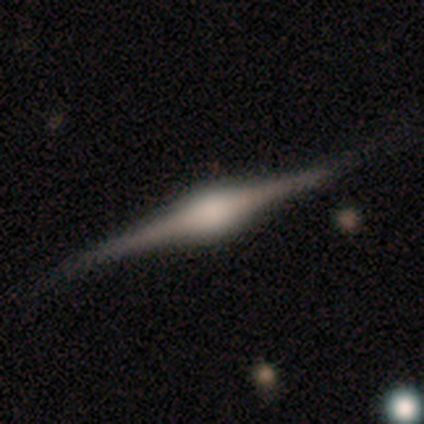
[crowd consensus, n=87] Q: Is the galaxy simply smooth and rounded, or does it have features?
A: featured or disk — 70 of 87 (80%).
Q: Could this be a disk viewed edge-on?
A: yes — 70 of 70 (100%).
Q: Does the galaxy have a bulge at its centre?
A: rounded — 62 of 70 (89%).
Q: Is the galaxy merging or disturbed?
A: none — 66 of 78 (85%).